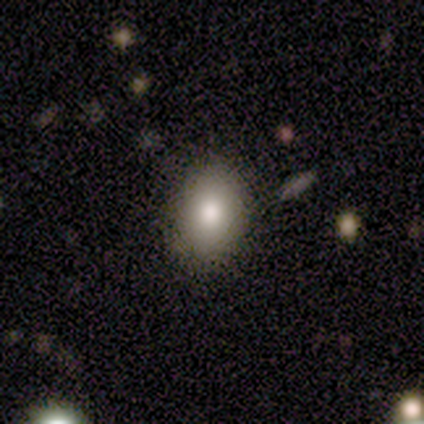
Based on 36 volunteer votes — This is clearly a smooth galaxy (86%). How rounded: likely in between (68%). Merging: likely none (76%).